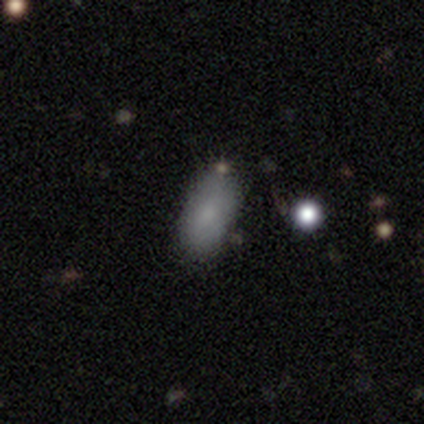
smooth-or-featured: smooth: 100% | featured or disk: 0% | star or artifact: 0%
  how-rounded: in between: 86% | round: 14% | cigar-shaped: 0%
  merging: none: 86% | minor disturbance: 14% | major disturbance: 0% | merger: 0%